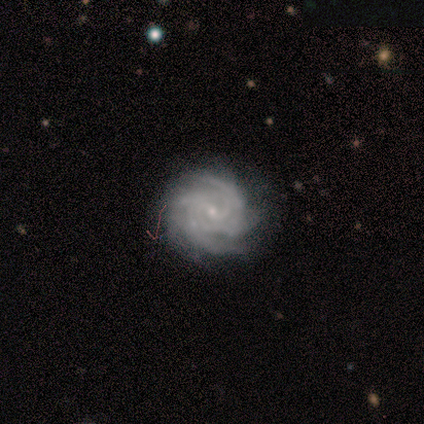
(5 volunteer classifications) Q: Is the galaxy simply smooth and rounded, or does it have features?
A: featured or disk — 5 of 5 (100%).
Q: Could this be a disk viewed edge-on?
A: no — 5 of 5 (100%).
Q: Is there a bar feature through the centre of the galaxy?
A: no — 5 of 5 (100%).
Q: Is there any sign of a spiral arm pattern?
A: yes — 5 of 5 (100%).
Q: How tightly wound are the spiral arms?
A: tight — 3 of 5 (60%).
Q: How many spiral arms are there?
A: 4 — 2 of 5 (40%, tied with more than 4).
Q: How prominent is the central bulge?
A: small — 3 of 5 (60%).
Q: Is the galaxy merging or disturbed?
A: none — 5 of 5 (100%).